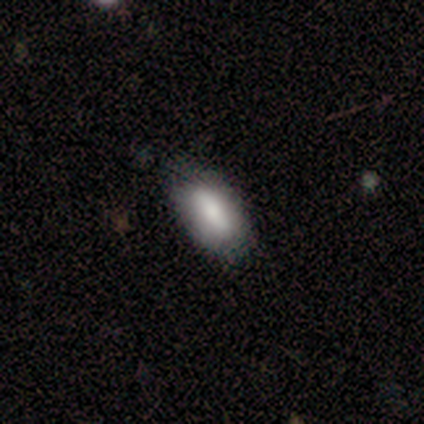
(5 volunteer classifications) Overall: smooth (60%; featured or disk 40%). How rounded: in between (100%). Merging: none (100%).